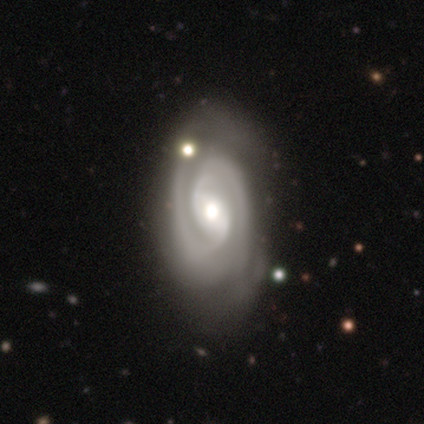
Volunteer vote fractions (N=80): Smooth or featured?
  - featured or disk: 90% *
  - smooth: 6%
  - star or artifact: 4%
Edge-on disk?
  - no: 99% *
  - yes: 1%
Bar?
  - weak: 48% *
  - no: 31%
  - strong: 21%
Spiral arms?
  - yes: 99% *
  - no: 1%
Spiral winding?
  - tight: 66% *
  - medium: 29%
  - loose: 6%
Spiral arm count?
  - 2: 89% *
  - 3: 7%
  - can't tell: 4%
  - 1: 0%
  - 4: 0%
  - more than 4: 0%
Bulge size?
  - moderate: 69% *
  - large: 15%
  - small: 13%
  - dominant: 3%
  - none: 0%
Merging?
  - none: 23% *
  - minor disturbance: 18%
  - major disturbance: 6%
  - merger: 5%